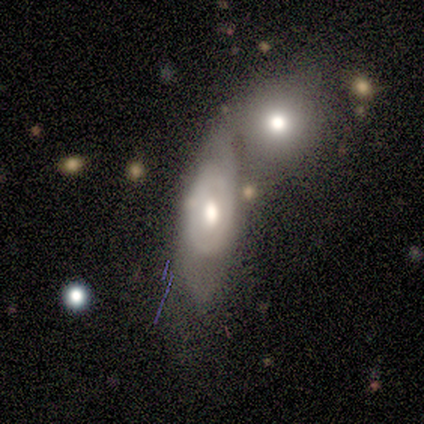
This is possibly a featured or disk galaxy (57%). It is clearly not viewed edge-on (87%). Bar: clearly no (80%). Spiral arm pattern: likely no (75%). Central bulge: likely moderate (65%). Merging: possibly merger (59%).